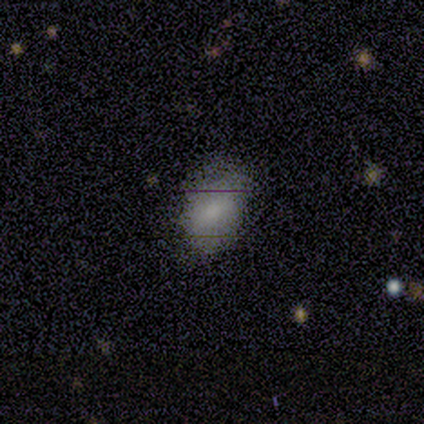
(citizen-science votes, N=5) Morphology: type=smooth (60%); roundness=in between (100%); merging=none (75%).